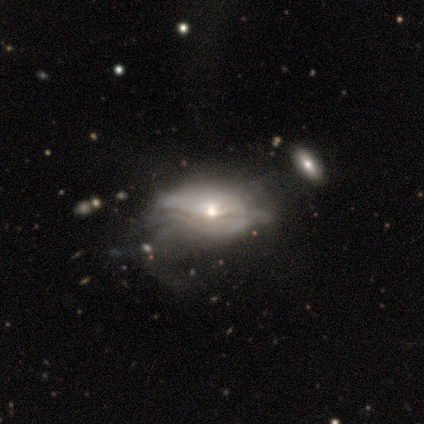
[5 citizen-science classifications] Smooth or featured? featured or disk (60%)
Edge-on disk? no (100%)
Bar? no (100%)
Spiral arms? no (100%)
Bulge size? moderate (100%)
Merging? major disturbance (40%, tied with merger)